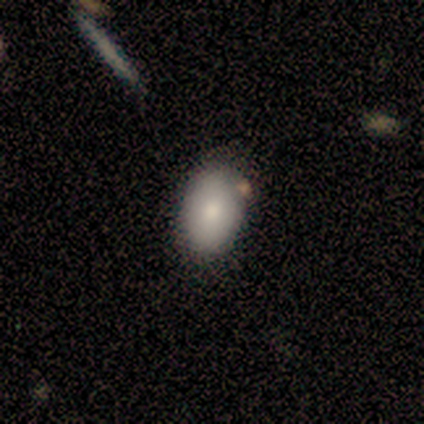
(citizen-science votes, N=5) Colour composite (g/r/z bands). It shows a smooth galaxy with no disk features (100%) that is in between round and cigar-shaped (100%). Merging: none (80%).